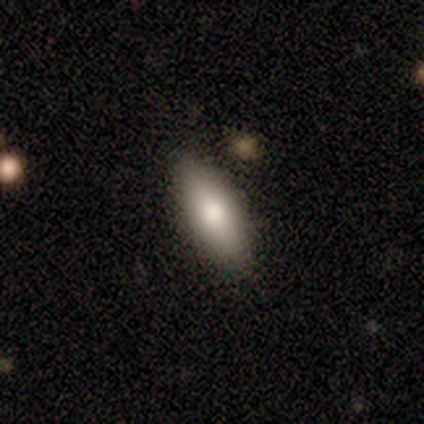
smooth-or-featured: smooth: 80% | featured or disk: 20% | star or artifact: 0%
  how-rounded: in between: 50% (tied) | cigar-shaped: 50% (tied) | round: 0%
  merging: none: 100% | minor disturbance: 0% | major disturbance: 0% | merger: 0%